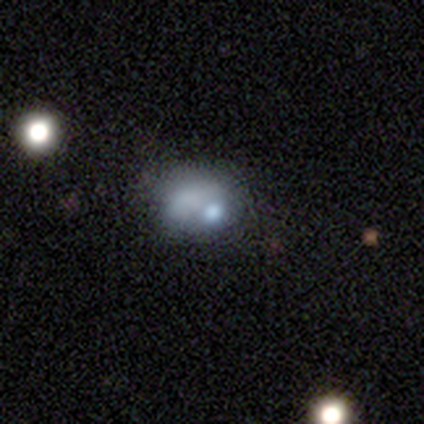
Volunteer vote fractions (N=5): Smooth or featured: smooth — 80% (featured or disk — 20%)
How rounded: round — 50% (tied with in between — 50%)
Merging: major disturbance — 60% (none — 20%)